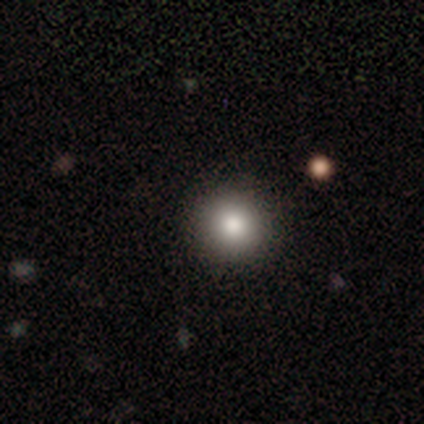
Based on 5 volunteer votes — Volunteers were most divided on "how rounded": round: 60%, in between: 40%, cigar-shaped: 0%. More confident: smooth or featured — smooth (100%); merging — none (80%).